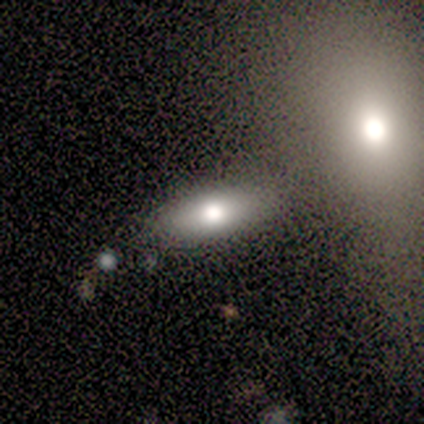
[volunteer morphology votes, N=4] Smooth or featured?
  - smooth: 75% *
  - star or artifact: 25%
  - featured or disk: 0%
How rounded?
  - cigar-shaped: 67% *
  - in between: 33%
  - round: 0%
Merging?
  - none: 67% *
  - minor disturbance: 33%
  - major disturbance: 0%
  - merger: 0%